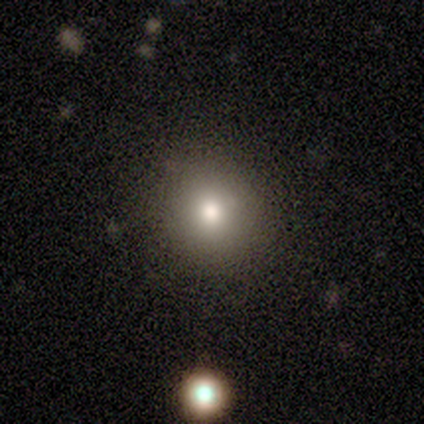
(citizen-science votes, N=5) Smooth or featured?
  - smooth: 80% *
  - star or artifact: 20%
  - featured or disk: 0%
How rounded?
  - round: 100% *
  - in between: 0%
  - cigar-shaped: 0%
Merging?
  - none: 100% *
  - minor disturbance: 0%
  - major disturbance: 0%
  - merger: 0%